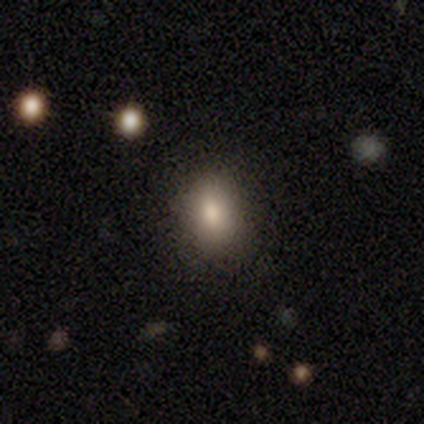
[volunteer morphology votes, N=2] Smooth or featured: featured or disk — 50% (tied with star or artifact — 50%)
Edge-on disk: no — 100%
Bar: no — 100%
Spiral arms: no — 100%
Bulge size: large — 100%
Merging: none — 100%